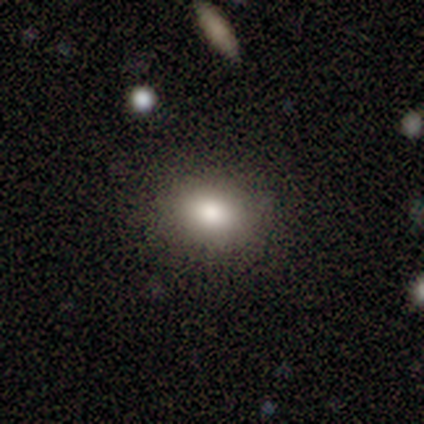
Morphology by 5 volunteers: Volunteers were most divided on "how rounded" (2-way tie): round: 50%, in between: 50%, cigar-shaped: 0%. More confident: smooth or featured — smooth (80%); merging — none (80%).